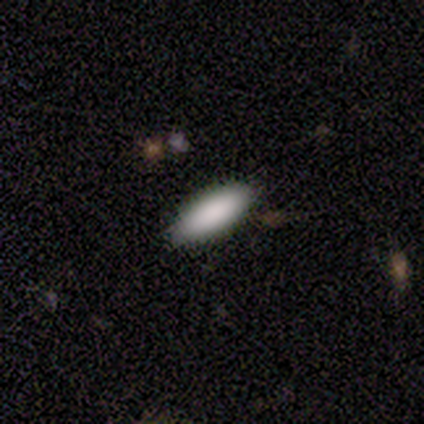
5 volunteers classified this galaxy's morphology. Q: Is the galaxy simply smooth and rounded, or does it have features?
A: smooth — 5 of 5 (100%).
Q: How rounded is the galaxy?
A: in between — 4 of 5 (80%).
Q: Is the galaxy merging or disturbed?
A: none — 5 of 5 (100%).